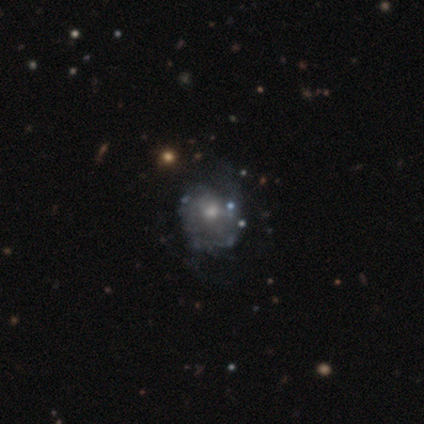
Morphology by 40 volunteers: This is likely a featured or disk galaxy (70%). It is clearly not viewed edge-on (100%). Bar: clearly no (82%). Spiral arm pattern: possibly yes (57%). Spiral arm count: marginally can't tell (44%). Spiral winding: possibly medium (56%). Central bulge: likely moderate (68%). Merging: marginally none (36%).